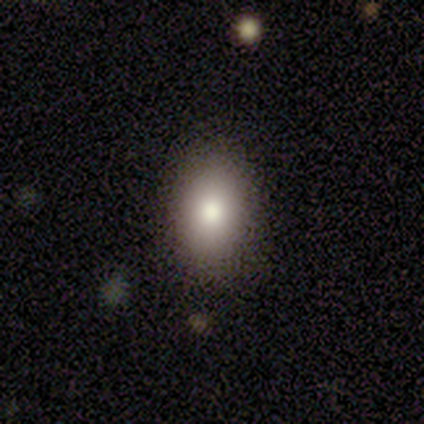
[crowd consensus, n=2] Q: Smooth or featured?
A: smooth (100%)
Q: How rounded?
A: in between (100%)
Q: Merging?
A: none (100%)